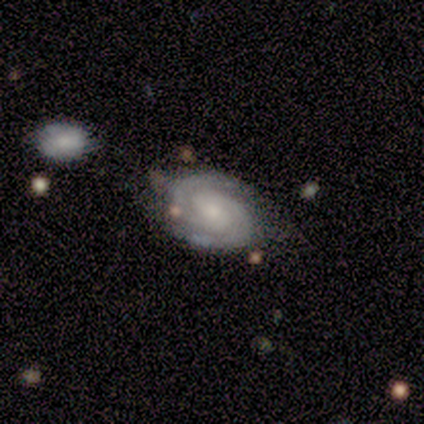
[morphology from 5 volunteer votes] Volunteers were most divided on "spiral arm count": 2: 80%, can't tell: 20%, 1: 0%, 3: 0%, 4: 0%, more than 4: 0%. More confident: smooth or featured — featured or disk (100%); edge-on disk — no (100%); bar — no (100%); spiral arms — yes (100%); spiral winding — tight (100%); bulge size — small (80%); merging — none (80%).